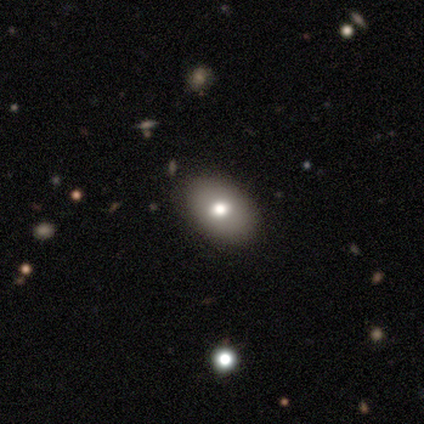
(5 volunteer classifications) Volunteers were most divided on "merging" (2-way tie): none: 50%, minor disturbance: 50%, major disturbance: 0%, merger: 0%. More confident: how rounded — in between (100%); smooth or featured — smooth (80%).